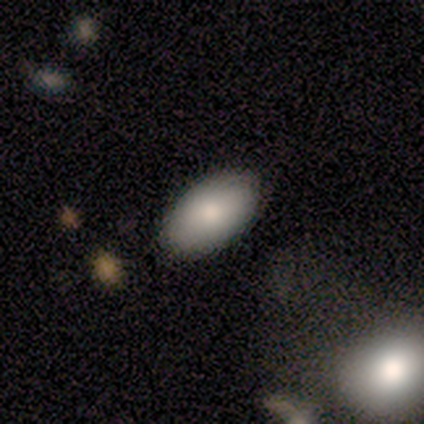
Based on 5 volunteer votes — Smooth or featured? 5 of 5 (100%) said smooth. How rounded? 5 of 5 (100%) said in between. Merging? 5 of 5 (100%) said none.